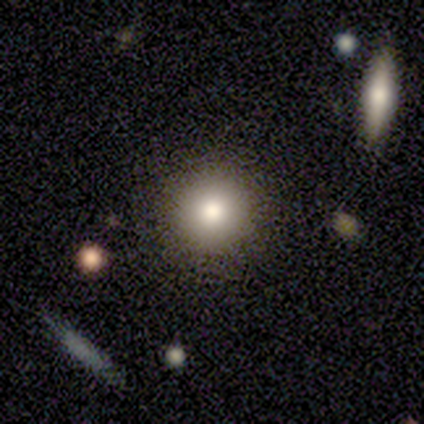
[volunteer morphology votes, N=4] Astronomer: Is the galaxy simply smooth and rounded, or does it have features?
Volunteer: smooth — 50%, tied with star or artifact at 50%.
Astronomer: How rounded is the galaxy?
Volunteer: round — 100%.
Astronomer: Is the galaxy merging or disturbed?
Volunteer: none — 100%.